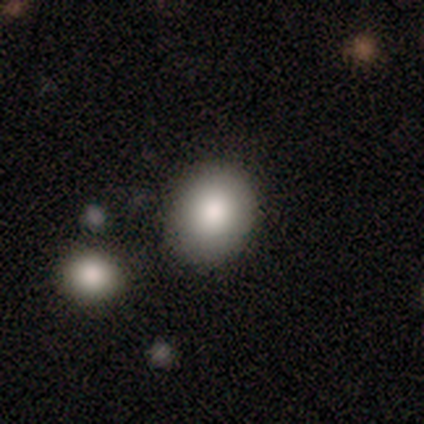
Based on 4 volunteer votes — smooth 75%, star or artifact 25%, featured or disk 0%. Down the decision tree: how rounded — round (67%); merging — none (100%).